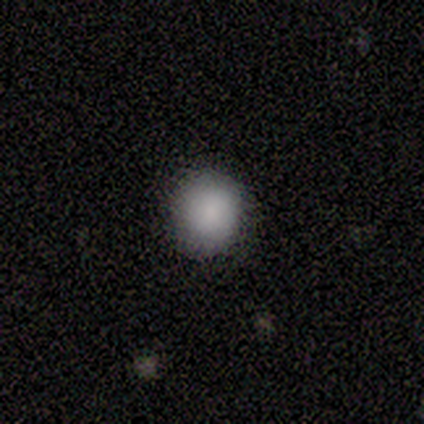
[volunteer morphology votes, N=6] Smooth or featured? smooth (67%)
How rounded? round (100%)
Merging? none (75%)